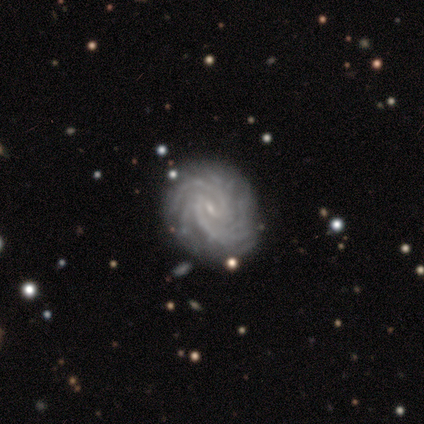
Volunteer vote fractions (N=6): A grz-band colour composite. It shows a featured or disk galaxy (83%) with no bar (60%), 2 (40%, tied with more than 4) tight (100%) spiral arms (100%) and a small central bulge (80%). Merging: none (80%).